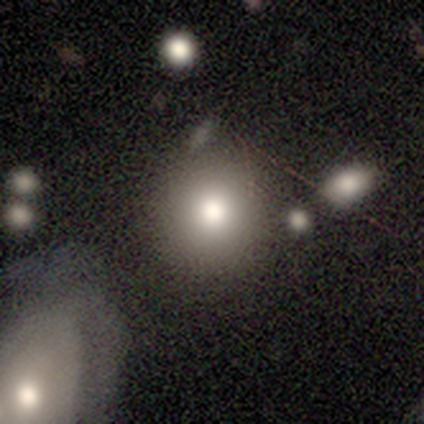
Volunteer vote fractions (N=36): A smooth galaxy with no disk features (75%) that is round (89%). Merging: none (69%).